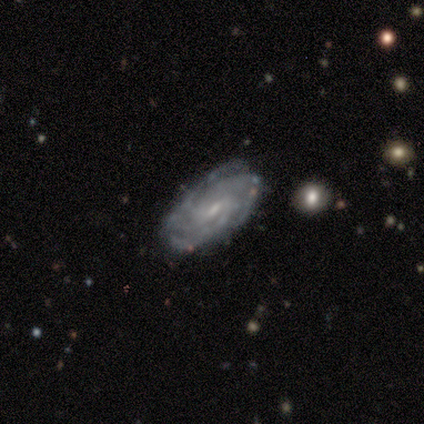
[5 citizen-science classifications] Smooth or featured? featured or disk (100%)
Edge-on disk? no (100%)
Bar? weak (40%, tied with no)
Spiral arms? yes (100%)
Spiral winding? tight (100%)
Spiral arm count? 3 (60%)
Bulge size? moderate (80%)
Merging? none (40%, tied with minor disturbance)